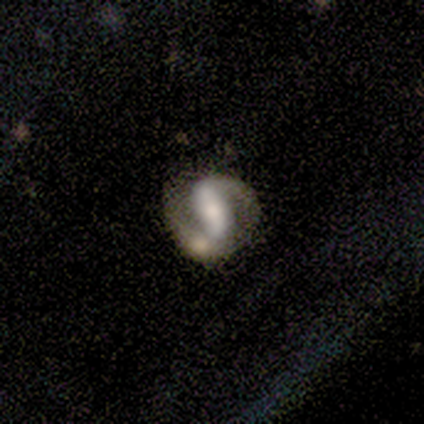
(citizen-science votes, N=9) Smooth or featured? 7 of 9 (78%) said featured or disk. Edge-on disk? 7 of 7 (100%) said no. Bar? 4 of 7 (57%) said strong. Spiral arms? 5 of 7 (71%) said yes. Spiral winding? 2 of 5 (40%, tied with loose) said tight. Spiral arm count? 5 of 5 (100%) said 2. Bulge size? 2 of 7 (29%, tied with moderate and small) said large. Merging? 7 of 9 (78%) said none.